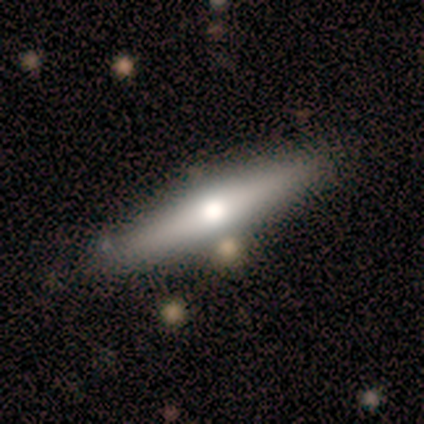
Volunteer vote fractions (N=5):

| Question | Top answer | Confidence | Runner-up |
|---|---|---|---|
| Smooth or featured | smooth | 60% | featured or disk (40%) |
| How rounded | cigar-shaped | 100% | — |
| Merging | none | 80% | minor disturbance (20%) |